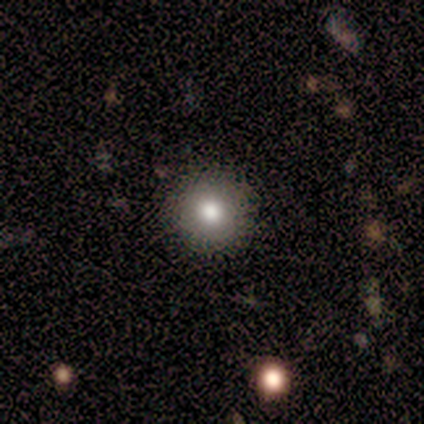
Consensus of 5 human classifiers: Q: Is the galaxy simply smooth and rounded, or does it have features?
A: smooth — 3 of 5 (60%).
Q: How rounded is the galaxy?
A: round — 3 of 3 (100%).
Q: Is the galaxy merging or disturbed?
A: none — 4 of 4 (100%).